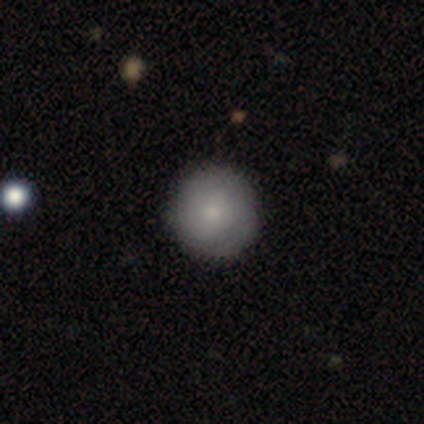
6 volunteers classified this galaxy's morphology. Volunteers were most divided on "smooth or featured": smooth: 50%, featured or disk: 33%, star or artifact: 17%. More confident: how rounded — round (100%); merging — none (60%).